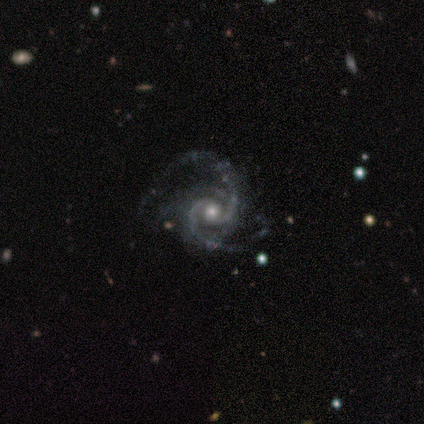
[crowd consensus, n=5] Volunteers were most divided on "spiral winding" (2-way tie): tight: 40%, medium: 40%, loose: 20%. More confident: smooth or featured — featured or disk (100%); edge-on disk — no (100%); spiral arms — yes (100%); bulge size — moderate (100%); bar — no (80%); merging — minor disturbance (60%); spiral arm count — 2 (60%).